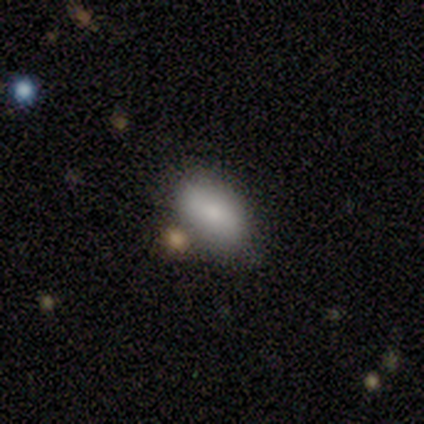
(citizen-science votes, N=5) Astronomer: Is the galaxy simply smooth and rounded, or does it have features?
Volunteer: smooth — 100%.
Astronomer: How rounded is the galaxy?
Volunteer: in between — 80%.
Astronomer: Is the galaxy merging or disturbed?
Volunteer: none — 100%.